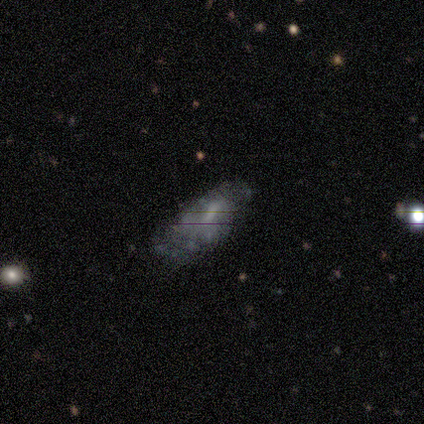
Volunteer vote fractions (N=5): Morphology: type=smooth (100%); roundness=in between (80%); merging=none (60%).